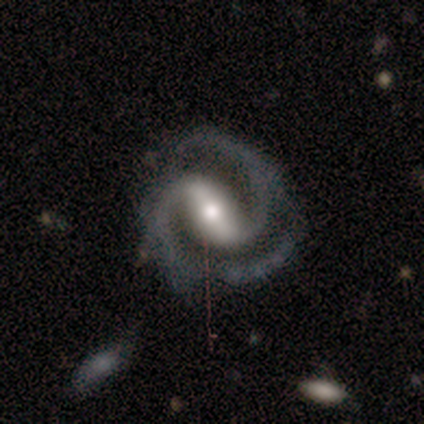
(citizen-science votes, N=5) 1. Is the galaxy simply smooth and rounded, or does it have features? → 100% featured or disk, 0% smooth, 0% star or artifact.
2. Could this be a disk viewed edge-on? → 100% no, 0% yes.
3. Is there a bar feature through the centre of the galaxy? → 80% strong, 20% weak, 0% no.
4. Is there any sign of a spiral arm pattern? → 100% yes, 0% no.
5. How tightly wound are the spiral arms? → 100% medium, 0% tight, 0% loose.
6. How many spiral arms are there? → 100% 2, 0% 1, 0% 3, 0% 4, 0% more than 4, 0% can't tell.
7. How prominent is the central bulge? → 80% moderate, 20% small, 0% dominant, 0% large, 0% none.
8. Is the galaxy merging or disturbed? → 60% none, 20% minor disturbance, 20% major disturbance, 0% merger.